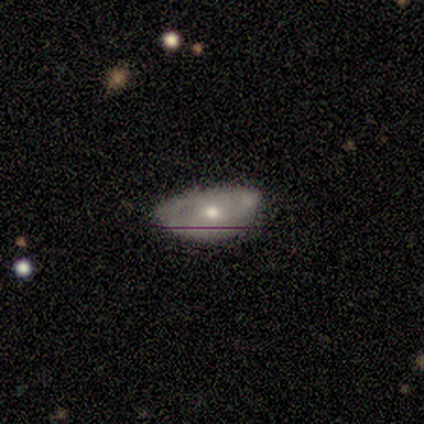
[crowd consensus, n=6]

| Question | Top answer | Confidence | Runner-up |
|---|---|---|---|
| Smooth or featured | featured or disk | 67% | smooth (33%) |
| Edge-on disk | no | 100% | — |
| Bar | no | 75% | weak (25%) |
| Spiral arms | no | 75% | yes (25%) |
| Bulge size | moderate | 50% | large (25%) |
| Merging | minor disturbance | 67% | none (33%) |